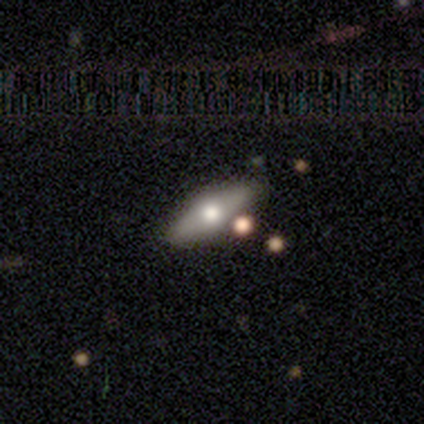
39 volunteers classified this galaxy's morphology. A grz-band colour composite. It shows a featured or disk galaxy (46%) viewed edge-on (89%) with a rounded central bulge (100%). Merging: none (90%).